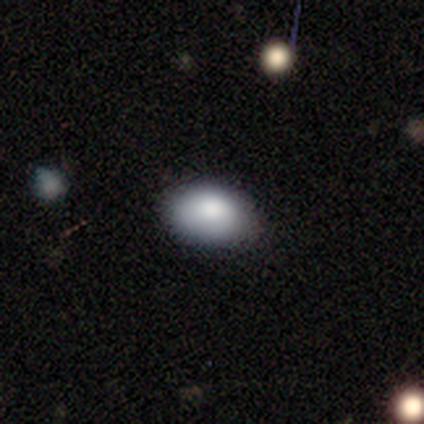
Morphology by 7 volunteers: This appears to be a smooth galaxy with no disk features (100%) that is in between round and cigar-shaped (86%). Merging: none (86%).